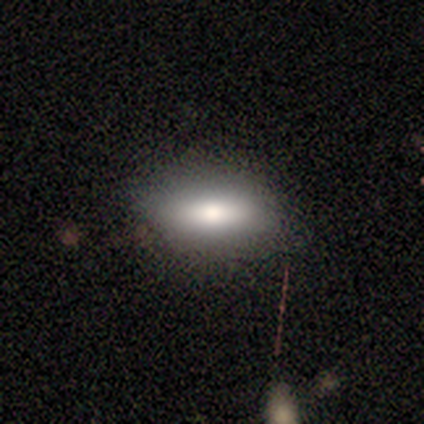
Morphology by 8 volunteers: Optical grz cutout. It shows a smooth galaxy with no disk features (62%) that is in between round and cigar-shaped (60%). Merging: none (75%).